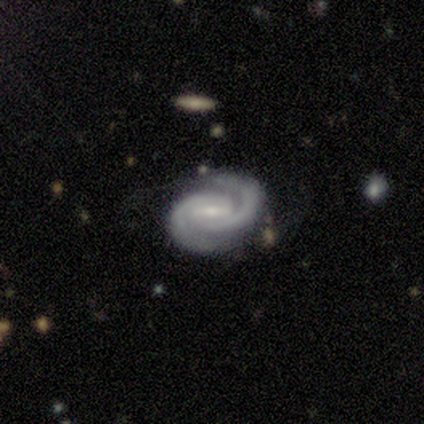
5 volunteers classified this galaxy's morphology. A featured or disk galaxy (100%) with a strong bar (40%, tied with weak), 2 (100%) tight (80%) spiral arms (100%) and a small central bulge (100%).

Vote fractions:
- Smooth or featured? featured or disk: 100% / smooth: 0% / star or artifact: 0%
- Edge-on disk? no: 100% / yes: 0%
- Bar? strong: 40% (tied) / weak: 40% (tied) / no: 20%
- Spiral arms? yes: 100% / no: 0%
- Spiral winding? tight: 80% / medium: 20% / loose: 0%
- Spiral arm count? 2: 100% / 1: 0% / 3: 0% / 4: 0% / more than 4: 0% / can't tell: 0%
- Bulge size? small: 100% / dominant: 0% / large: 0% / moderate: 0% / none: 0%
- Merging? none: 80% / minor disturbance: 20% / major disturbance: 0% / merger: 0%